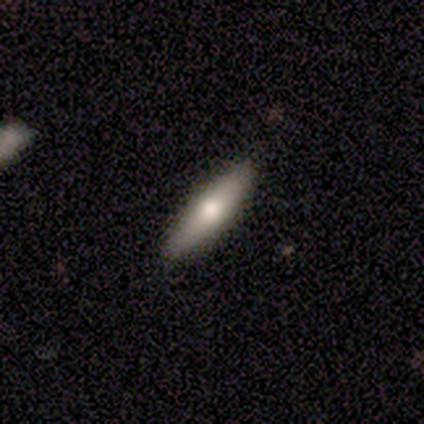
Q: Smooth or featured?
A: smooth (60%); runner-up: featured or disk (40%)
Q: How rounded?
A: cigar-shaped (67%); runner-up: in between (33%)
Q: Merging?
A: none (100%)